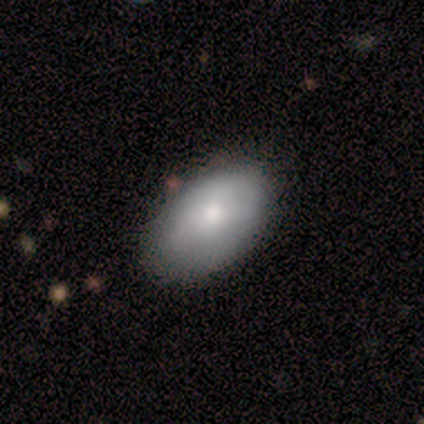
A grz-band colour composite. It shows a smooth galaxy with no disk features (100%) that is in between round and cigar-shaped (100%). Merging: none (50%, tied with minor disturbance).